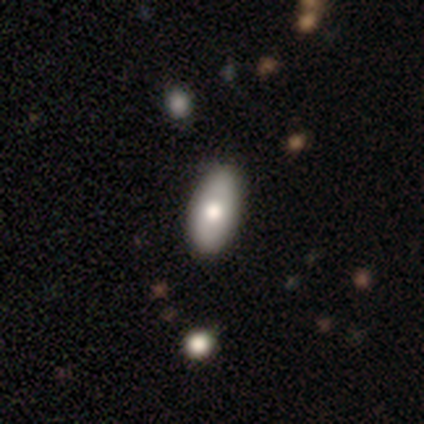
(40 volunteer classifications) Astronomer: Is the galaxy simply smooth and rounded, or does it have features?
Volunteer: smooth — 82%.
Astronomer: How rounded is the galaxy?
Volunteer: in between — 94%.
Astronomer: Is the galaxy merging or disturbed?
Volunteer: none — 89%.